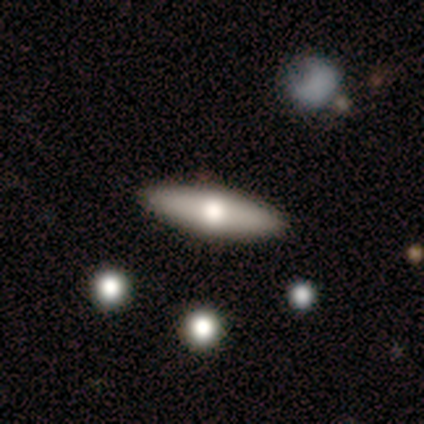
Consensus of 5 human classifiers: Overall: smooth (80%). How rounded: in between (50%, tied with cigar-shaped). Merging: none (100%).